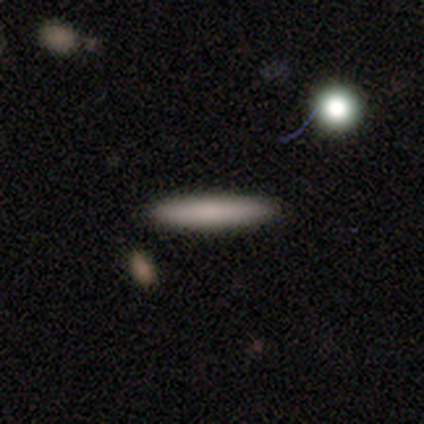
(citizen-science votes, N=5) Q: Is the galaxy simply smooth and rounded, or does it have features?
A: smooth — 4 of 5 (80%).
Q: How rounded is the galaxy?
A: cigar-shaped — 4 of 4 (100%).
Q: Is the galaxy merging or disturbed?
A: none — 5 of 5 (100%).